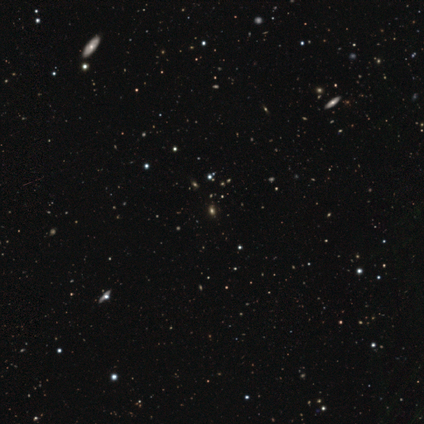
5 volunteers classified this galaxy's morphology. smooth-or-featured: smooth: 40% (tied) | star or artifact: 40% (tied) | featured or disk: 20%
  how-rounded: round: 50% (tied) | in between: 50% (tied) | cigar-shaped: 0%
  merging: none: 100% | minor disturbance: 0% | major disturbance: 0% | merger: 0%